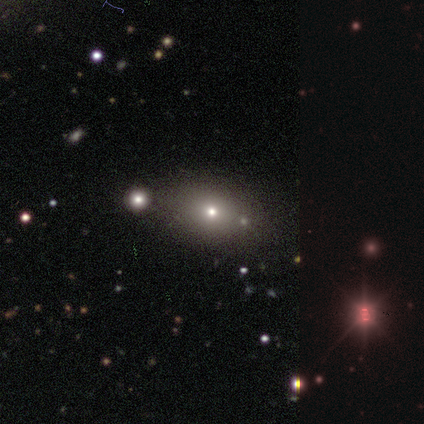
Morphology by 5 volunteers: type=smooth (60%); roundness=in between (100%); merging=none (60%).